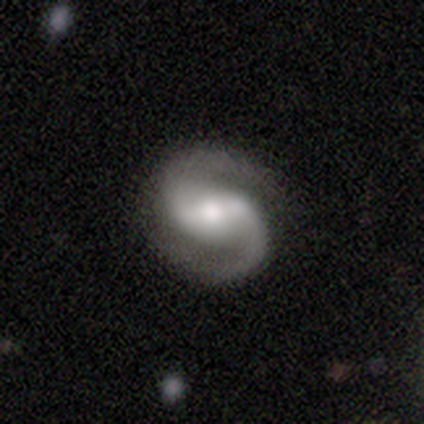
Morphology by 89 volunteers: Overall: featured or disk (92%). Edge-on disk: no (100%). Bar: weak (43%; strong 40%). Spiral arms: yes (99%). Spiral arm count: 2 (98%). Spiral winding: medium (52%; tight 25%). Bulge size: moderate (54%; small 23%). Merging: none (92%).